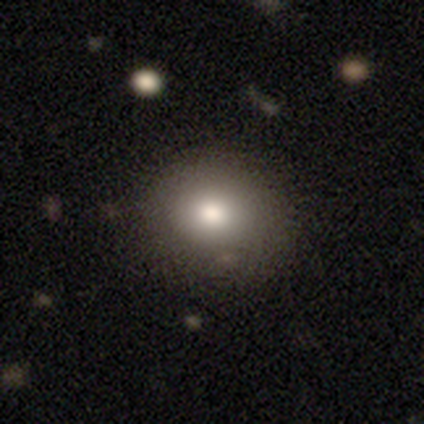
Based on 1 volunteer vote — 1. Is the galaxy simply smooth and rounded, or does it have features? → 100% smooth, 0% featured or disk, 0% star or artifact.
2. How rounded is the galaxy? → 100% round, 0% in between, 0% cigar-shaped.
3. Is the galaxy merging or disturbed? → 100% none, 0% minor disturbance, 0% major disturbance, 0% merger.